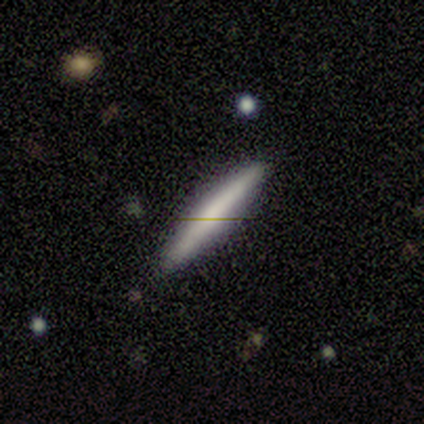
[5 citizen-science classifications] This is likely a smooth galaxy (60%). How rounded: clearly cigar-shaped (100%). Merging: clearly none (100%).